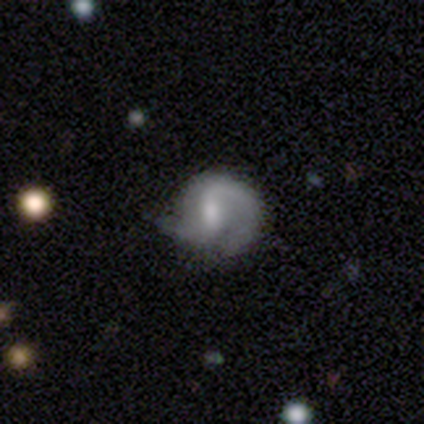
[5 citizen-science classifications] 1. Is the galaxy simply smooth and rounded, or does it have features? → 80% featured or disk, 20% smooth, 0% star or artifact.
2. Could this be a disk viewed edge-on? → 100% no, 0% yes.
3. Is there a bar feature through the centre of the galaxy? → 75% weak, 25% no, 0% strong.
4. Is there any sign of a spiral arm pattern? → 100% yes, 0% no.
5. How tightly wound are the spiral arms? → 100% loose, 0% tight, 0% medium.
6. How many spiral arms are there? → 75% 2, 25% can't tell, 0% 1, 0% 3, 0% 4, 0% more than 4.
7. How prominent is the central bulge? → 50% moderate, 25% small, 25% none, 0% dominant, 0% large.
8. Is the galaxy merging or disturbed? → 60% minor disturbance, 40% none, 0% major disturbance, 0% merger.